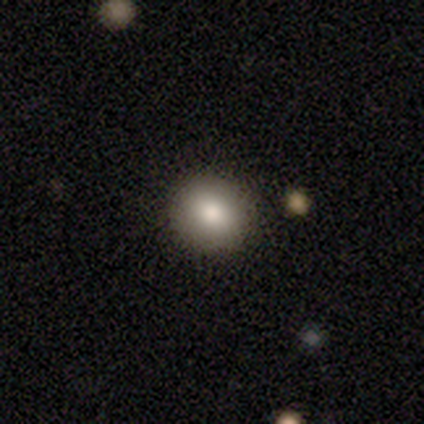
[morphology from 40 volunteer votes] Smooth or featured? smooth (90%)
How rounded? round (89%)
Merging? none (51%)